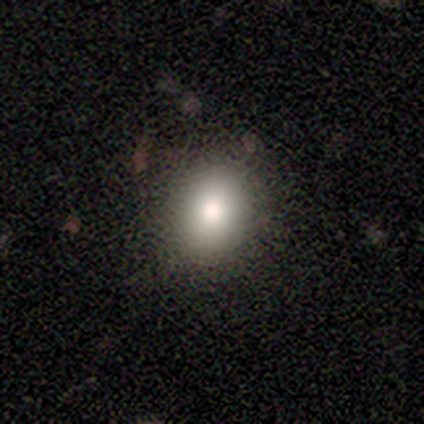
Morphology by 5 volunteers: Volunteers were most divided on "smooth or featured": smooth: 60%, featured or disk: 40%, star or artifact: 0%. More confident: merging — none (80%); how rounded — in between (67%).